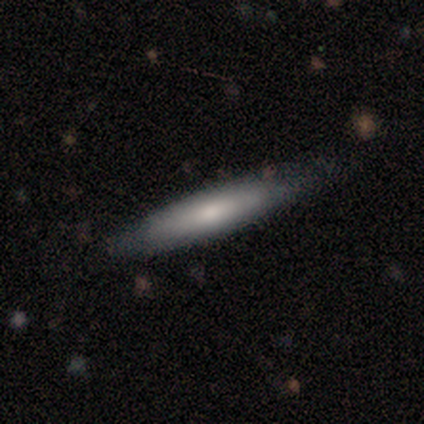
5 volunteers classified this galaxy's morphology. type=featured or disk (60%); edge-on=yes (100%); edge-on bulge=none (67%); merging=none (60%).